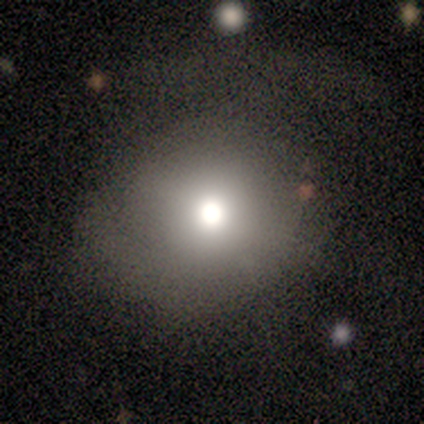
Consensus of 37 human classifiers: A smooth galaxy with no disk features (68%) that is round (100%). Merging: none (69%).